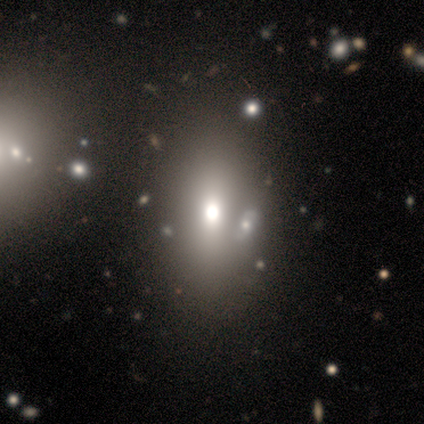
Smooth or featured: smooth — 40% (tied with star or artifact — 40%)
How rounded: in between — 100%
Merging: none — 100%